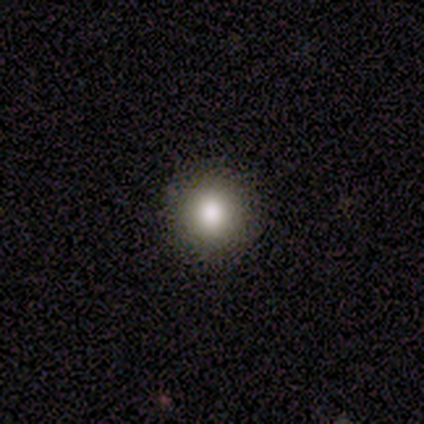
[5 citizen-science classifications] Smooth or featured? smooth (80%)
How rounded? round (100%)
Merging? none (100%)